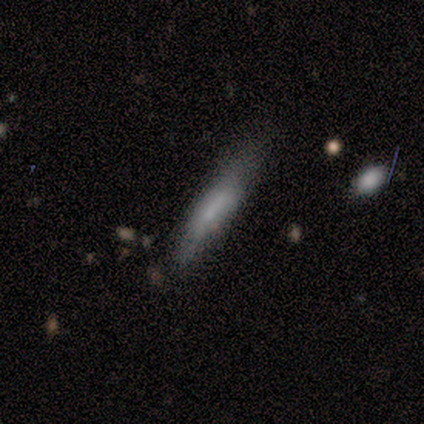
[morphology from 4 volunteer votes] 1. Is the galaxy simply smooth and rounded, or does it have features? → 75% smooth, 25% featured or disk, 0% star or artifact.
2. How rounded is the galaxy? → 100% cigar-shaped, 0% round, 0% in between.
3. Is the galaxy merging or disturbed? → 50% none (tied), 50% minor disturbance (tied), 0% major disturbance, 0% merger.